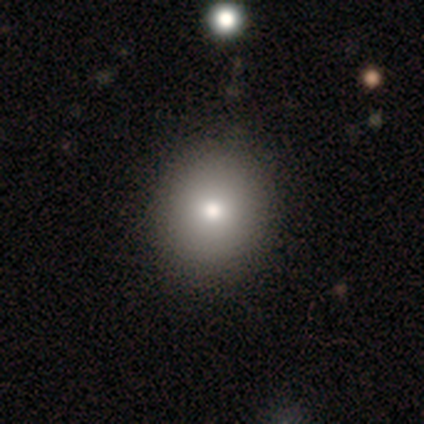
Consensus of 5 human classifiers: This is clearly a smooth galaxy (100%). How rounded: likely round (60%). Merging: clearly none (80%).